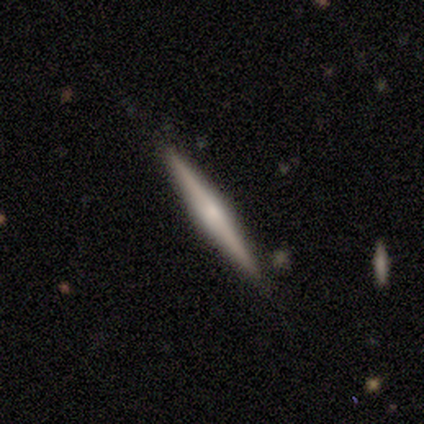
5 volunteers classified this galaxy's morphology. Volunteers were most divided on "smooth or featured": featured or disk: 60%, smooth: 40%, star or artifact: 0%. More confident: edge-on disk — yes (100%); merging — none (80%); edge-on bulge — rounded (67%).